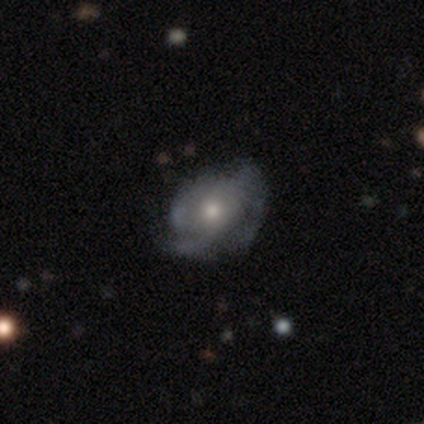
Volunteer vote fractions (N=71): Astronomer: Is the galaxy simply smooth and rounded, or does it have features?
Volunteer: featured or disk — 70%.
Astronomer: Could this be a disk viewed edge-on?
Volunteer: no — 98%.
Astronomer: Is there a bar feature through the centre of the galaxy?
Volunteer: no — 98%.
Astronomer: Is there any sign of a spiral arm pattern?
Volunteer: yes — 78%.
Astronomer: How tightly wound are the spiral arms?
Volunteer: medium — 50% (runner-up: tight, 39%).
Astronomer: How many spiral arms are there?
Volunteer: can't tell — 53% (runner-up: 3, 29%).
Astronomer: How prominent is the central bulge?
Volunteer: moderate — 63%.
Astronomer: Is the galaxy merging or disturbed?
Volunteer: none — 58%.